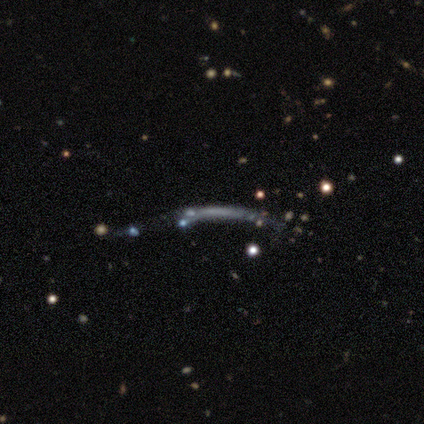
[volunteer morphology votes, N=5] This appears to be a smooth galaxy with no disk features (40%, tied with star or artifact) that is in between round and cigar-shaped (50%, tied with cigar-shaped). Merging: major disturbance (67%).